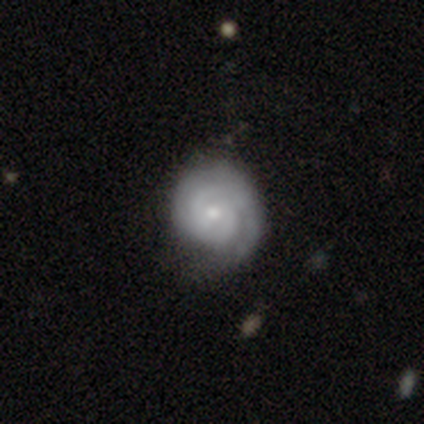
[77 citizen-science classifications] Smooth or featured? 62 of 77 (81%) said featured or disk. Edge-on disk? 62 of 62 (100%) said no. Bar? 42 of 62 (68%) said no. Spiral arms? 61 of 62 (98%) said yes. Spiral winding? 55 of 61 (90%) said tight. Spiral arm count? 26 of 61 (43%) said 2. Bulge size? 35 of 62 (56%) said small. Merging? 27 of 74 (36%) said none.